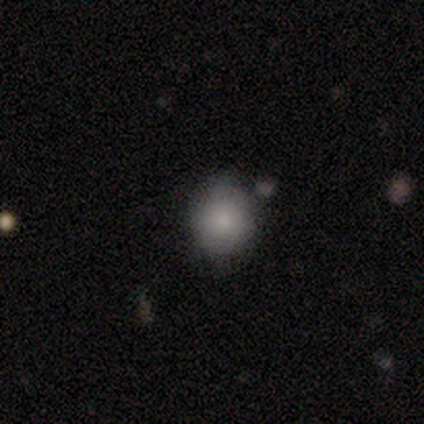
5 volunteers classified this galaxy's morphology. This appears to be a smooth galaxy with no disk features (60%) that is round (100%). Merging: none (100%).